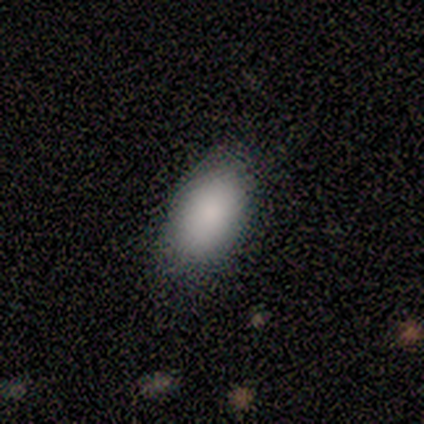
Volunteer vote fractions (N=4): A smooth galaxy with no disk features (100%) that is in between round and cigar-shaped (75%).

Vote fractions:
- Smooth or featured? smooth: 100% / featured or disk: 0% / star or artifact: 0%
- How rounded? in between: 75% / round: 25% / cigar-shaped: 0%
- Merging? none: 100% / minor disturbance: 0% / major disturbance: 0% / merger: 0%